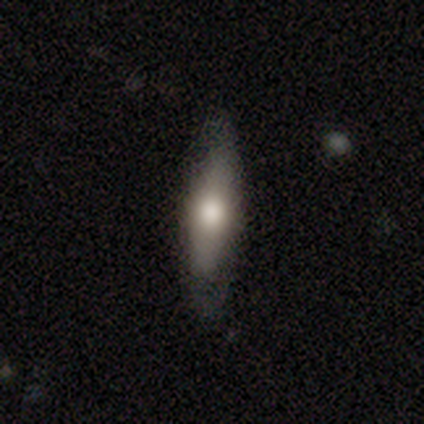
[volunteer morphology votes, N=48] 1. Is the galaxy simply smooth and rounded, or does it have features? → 58% smooth, 40% featured or disk, 2% star or artifact.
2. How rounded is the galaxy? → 61% cigar-shaped, 39% in between, 0% round.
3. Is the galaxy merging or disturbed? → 81% none, 13% minor disturbance, 6% major disturbance, 0% merger.